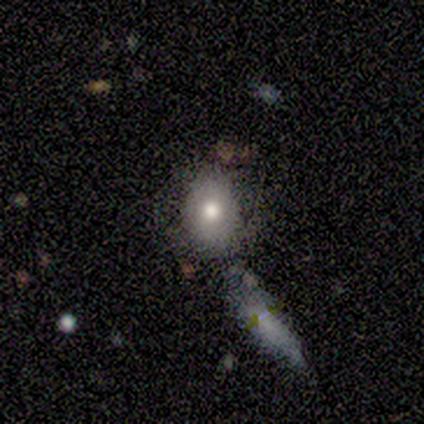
A smooth galaxy with no disk features (60%) that is in between round and cigar-shaped (67%). Merging: none (100%).